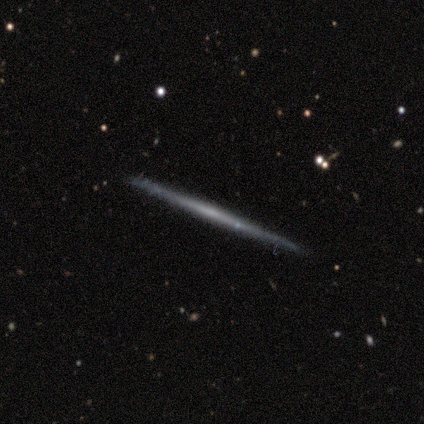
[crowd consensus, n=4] Q: Smooth or featured?
A: featured or disk (75%); runner-up: smooth (25%)
Q: Edge-on disk?
A: yes (67%); runner-up: no (33%)
Q: Edge-on bulge?
A: none (100%)
Q: Merging?
A: none (100%)